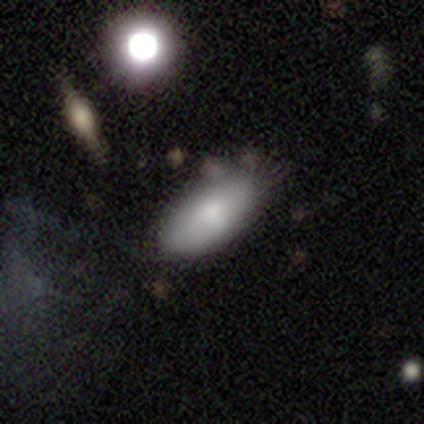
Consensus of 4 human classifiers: This is likely a smooth galaxy (75%). How rounded: clearly in between (100%). Merging: possibly none (50%, tied with minor disturbance).